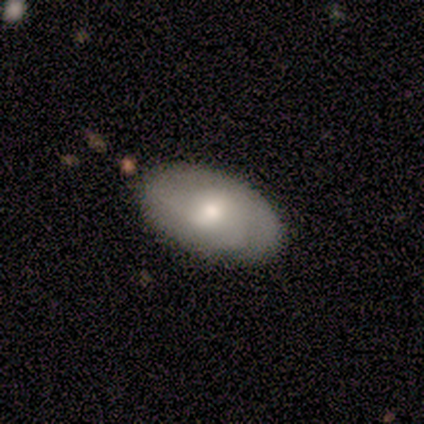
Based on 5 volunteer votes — smooth 60%, featured or disk 40%, star or artifact 0%. Down the decision tree: how rounded — in between (100%); merging — none (100%).